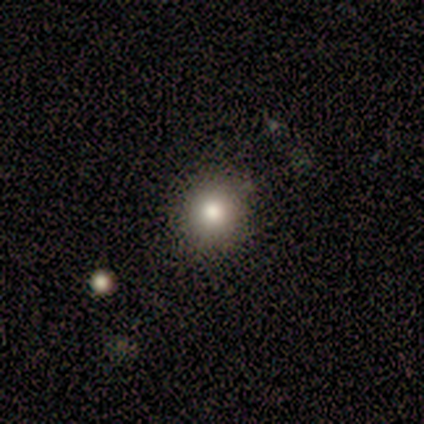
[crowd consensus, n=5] A smooth galaxy with no disk features (100%) that is round (100%). Merging: none (80%).